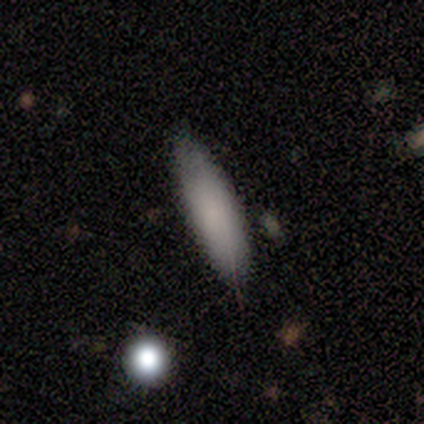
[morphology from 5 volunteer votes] smooth-or-featured: smooth: 100% | featured or disk: 0% | star or artifact: 0%
  how-rounded: cigar-shaped: 60% | in between: 40% | round: 0%
  merging: none: 100% | minor disturbance: 0% | major disturbance: 0% | merger: 0%